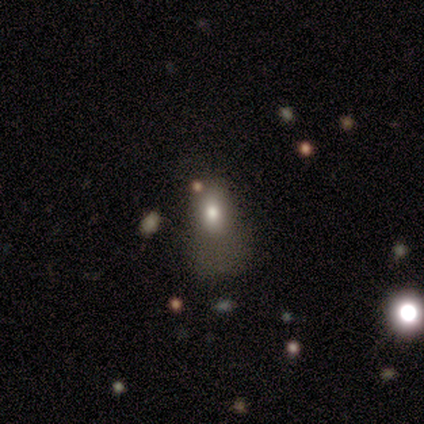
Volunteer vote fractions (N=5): This appears to be a smooth galaxy with no disk features (40%, tied with featured or disk) that is in between round and cigar-shaped (100%). Merging: minor disturbance (50%, tied with major disturbance).